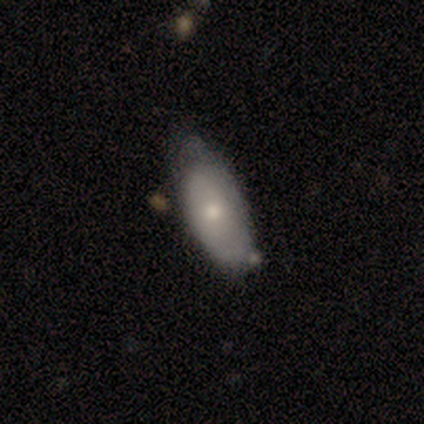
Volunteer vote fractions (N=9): smooth 67%, featured or disk 33%, star or artifact 0%. Down the decision tree: how rounded — in between (100%); merging — minor disturbance (44%).